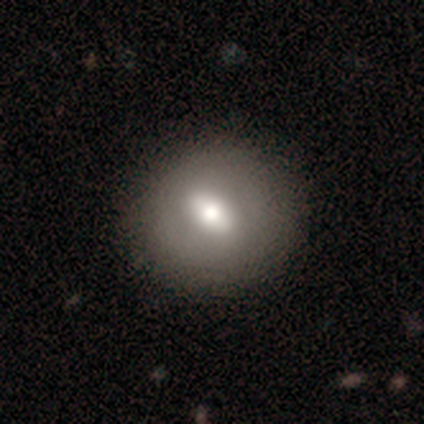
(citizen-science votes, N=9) This appears to be a smooth galaxy with no disk features (56%) that is round (80%). Merging: none (100%).